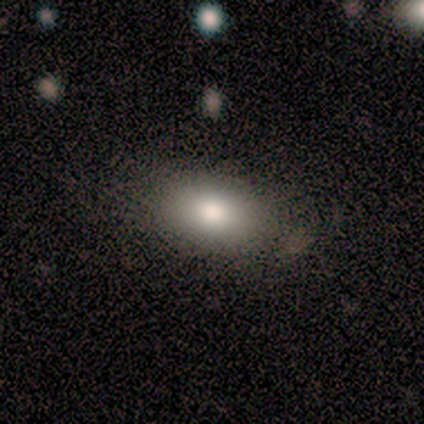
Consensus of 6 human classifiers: Overall: smooth (83%). How rounded: in between (100%). Merging: none (80%).